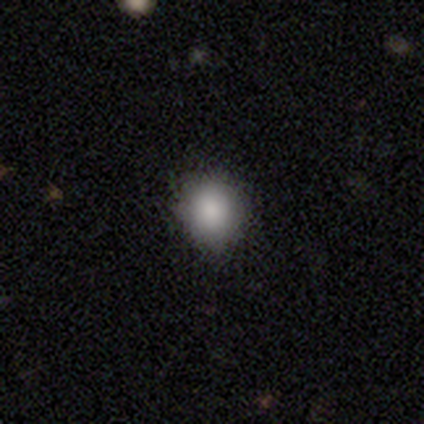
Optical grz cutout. It shows a smooth galaxy with no disk features (100%) that is round (80%). Merging: none (60%).